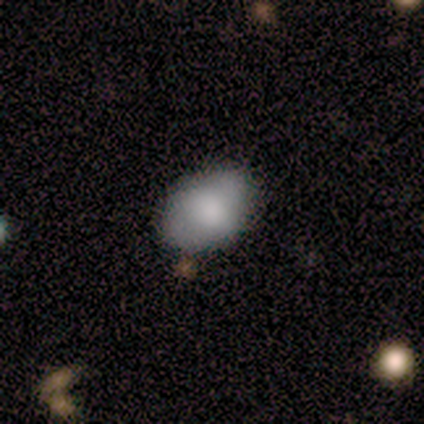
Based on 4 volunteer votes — Q: Smooth or featured?
A: smooth (100%)
Q: How rounded?
A: round (50%); tied with: in between (50%)
Q: Merging?
A: none (75%); runner-up: minor disturbance (25%)